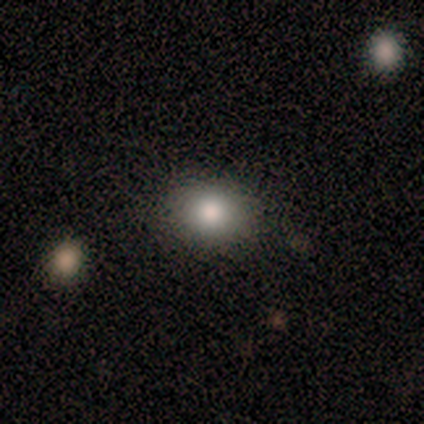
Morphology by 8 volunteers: smooth 75%, star or artifact 25%, featured or disk 0%. Down the decision tree: how rounded — round (50%, tied with in between); merging — none (100%).